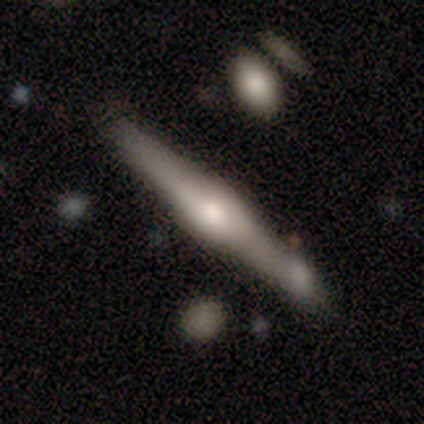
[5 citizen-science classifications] Smooth or featured? 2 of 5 (40%, tied with featured or disk) said smooth. How rounded? 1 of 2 (50%, tied with cigar-shaped) said in between. Merging? 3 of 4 (75%) said none.